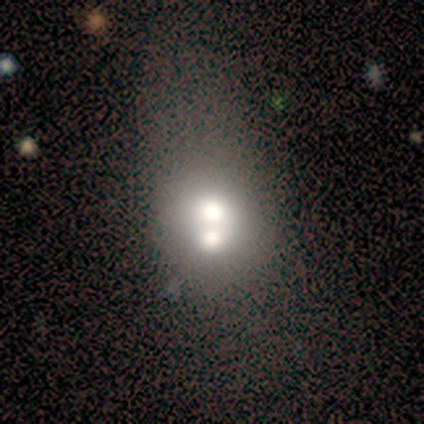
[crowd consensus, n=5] Smooth or featured? 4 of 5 (80%) said smooth. How rounded? 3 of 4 (75%) said round. Merging? 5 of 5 (100%) said merger.